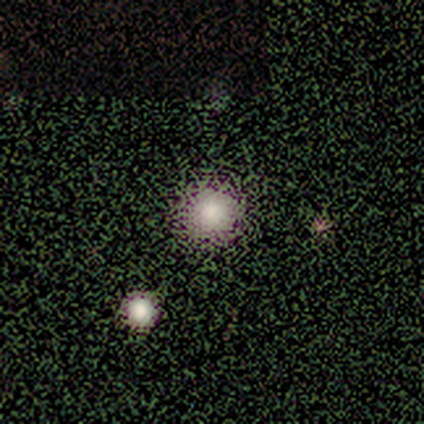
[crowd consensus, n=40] Smooth or featured: smooth — 55% (star or artifact — 38%)
How rounded: round — 95% (in between — 5%)
Merging: none — 64% (minor disturbance — 4%)